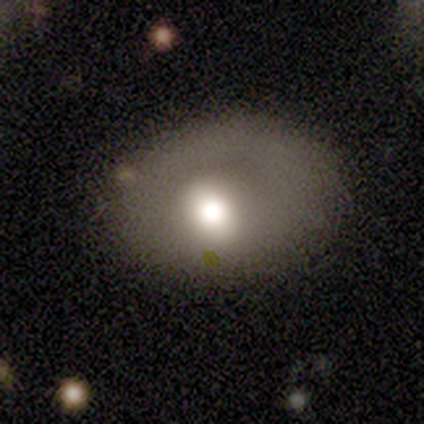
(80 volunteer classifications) smooth-or-featured: smooth: 62% | featured or disk: 30% | star or artifact: 8%
  how-rounded: in between: 68% | round: 32% | cigar-shaped: 0%
  merging: none: 31% | minor disturbance: 12% | major disturbance: 8% | merger: 4%